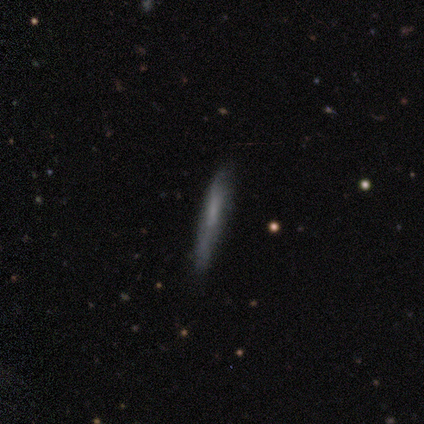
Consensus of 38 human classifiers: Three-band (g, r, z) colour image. It shows a smooth galaxy with no disk features (68%) that is cigar-shaped (96%). Merging: none (79%).